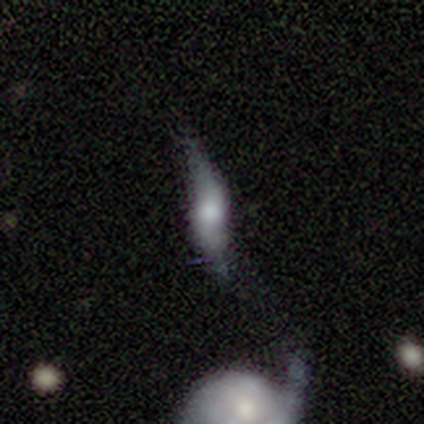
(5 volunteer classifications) Overall: featured or disk (60%; smooth 40%). Edge-on disk: yes (100%). Edge-on bulge: rounded (67%; none 33%). Merging: none (100%).